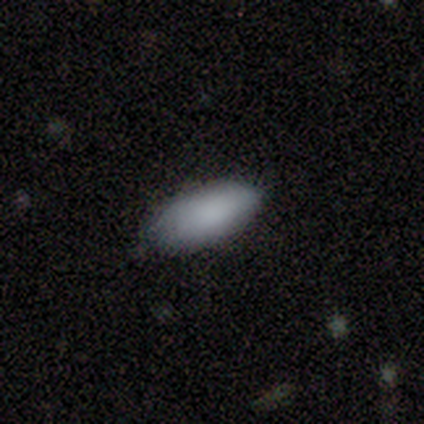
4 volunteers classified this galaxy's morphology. Smooth or featured? 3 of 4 (75%) said smooth. How rounded? 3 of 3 (100%) said in between. Merging? 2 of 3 (67%) said minor disturbance.